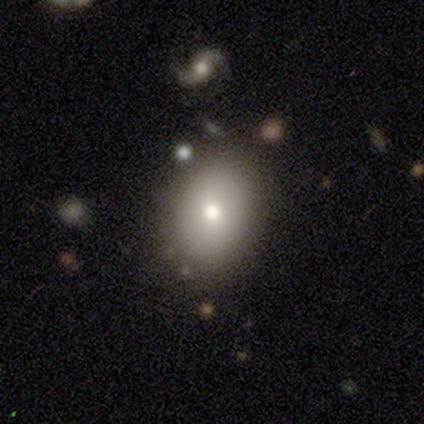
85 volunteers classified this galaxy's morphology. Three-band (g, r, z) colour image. It shows a smooth galaxy with no disk features (68%) that is in between round and cigar-shaped (66%). Merging: none (83%).